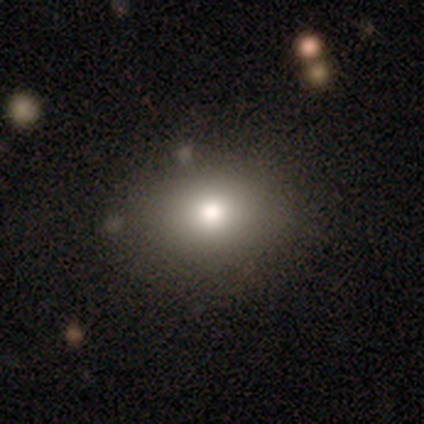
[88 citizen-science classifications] This appears to be a smooth galaxy with no disk features (83%) that is in between round and cigar-shaped (53%). Merging: none (78%).